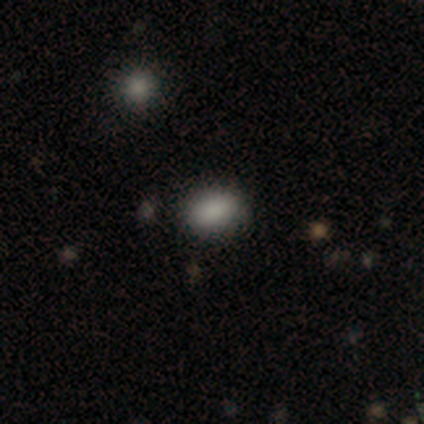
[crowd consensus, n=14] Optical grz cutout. It shows a smooth galaxy with no disk features (93%) that is in between round and cigar-shaped (62%). Merging: none (100%).